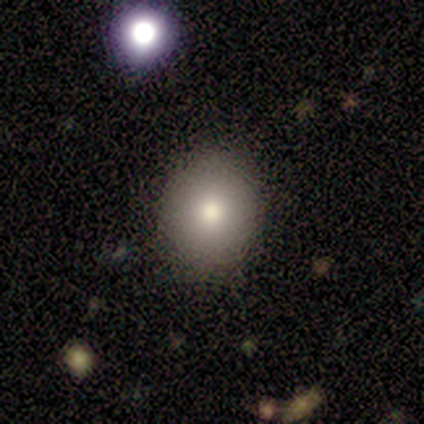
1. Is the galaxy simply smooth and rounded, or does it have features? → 80% smooth, 20% star or artifact, 0% featured or disk.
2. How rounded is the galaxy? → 75% round, 25% in between, 0% cigar-shaped.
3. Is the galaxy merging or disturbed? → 75% none, 25% minor disturbance, 0% major disturbance, 0% merger.